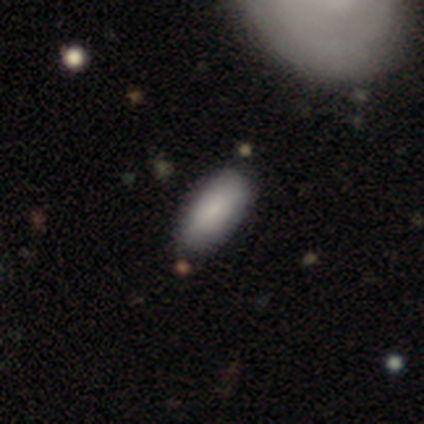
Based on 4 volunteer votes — smooth_or_featured: smooth (p=0.50) [tied with: star or artifact p=0.50]
how_rounded: in between (p=0.50) [tied with: cigar-shaped p=0.50]
merging: none (p=1.00)